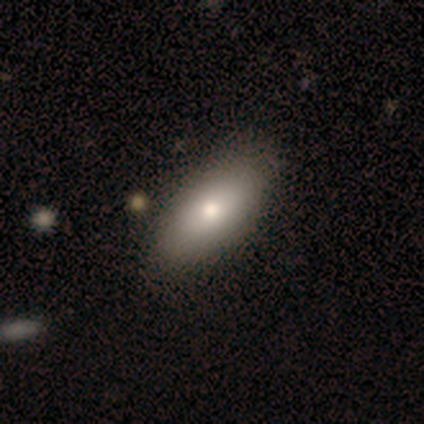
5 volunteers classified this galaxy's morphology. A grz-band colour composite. It shows a smooth galaxy with no disk features (100%) that is in between round and cigar-shaped (80%). Merging: none (60%).